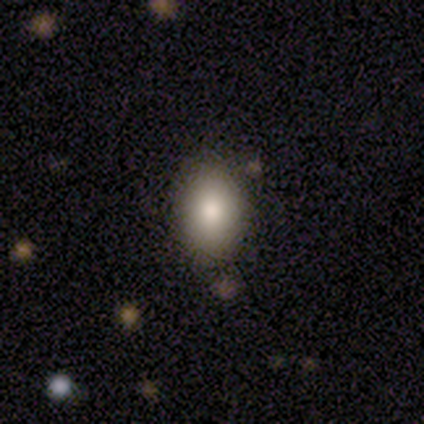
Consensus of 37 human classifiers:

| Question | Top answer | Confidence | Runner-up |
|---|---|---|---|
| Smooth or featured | smooth | 86% | featured or disk (8%) |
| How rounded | in between | 75% | round (22%) |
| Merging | none | 77% | minor disturbance (3%) |